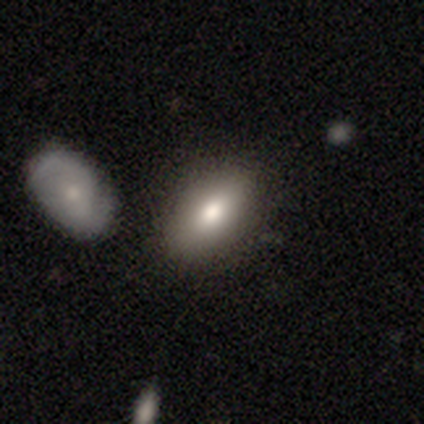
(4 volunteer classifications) Q: Smooth or featured?
A: smooth (100%)
Q: How rounded?
A: in between (100%)
Q: Merging?
A: none (75%); runner-up: minor disturbance (25%)